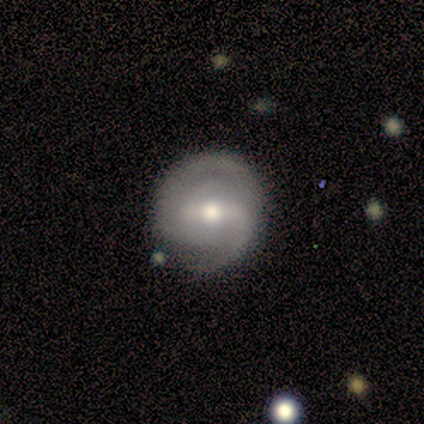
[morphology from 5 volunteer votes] Smooth or featured?
  - featured or disk: 80% *
  - smooth: 20%
  - star or artifact: 0%
Edge-on disk?
  - no: 100% *
  - yes: 0%
Bar?
  - strong: 50% * (tied)
  - weak: 50% * (tied)
  - no: 0%
Spiral arms?
  - yes: 75% *
  - no: 25%
Spiral winding?
  - loose: 67% *
  - medium: 33%
  - tight: 0%
Spiral arm count?
  - 1: 33% * (tied)
  - 2: 33% * (tied)
  - 3: 33% * (tied)
  - 4: 0%
  - more than 4: 0%
  - can't tell: 0%
Bulge size?
  - moderate: 100% *
  - dominant: 0%
  - large: 0%
  - small: 0%
  - none: 0%
Merging?
  - none: 80% *
  - minor disturbance: 20%
  - major disturbance: 0%
  - merger: 0%